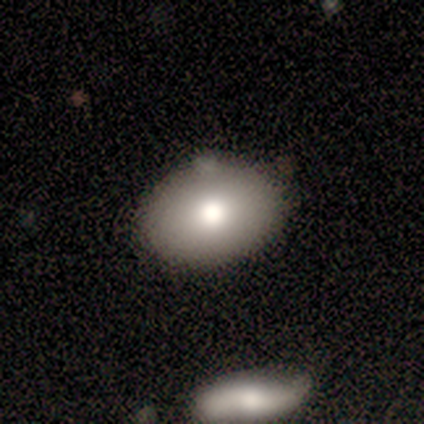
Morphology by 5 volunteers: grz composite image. It shows a smooth galaxy with no disk features (60%) that is in between round and cigar-shaped (100%). Merging: none (60%).